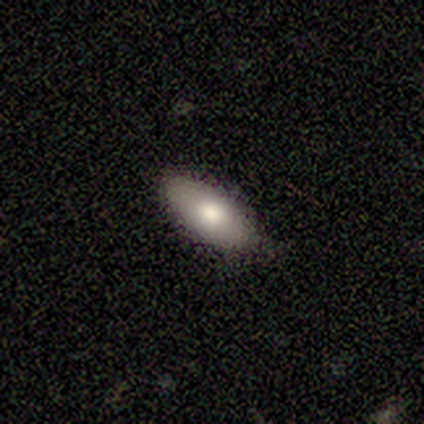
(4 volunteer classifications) smooth-or-featured: smooth: 50% | featured or disk: 25% | star or artifact: 25%
  how-rounded: round: 50% (tied) | in between: 50% (tied) | cigar-shaped: 0%
  merging: none: 67% | minor disturbance: 33% | major disturbance: 0% | merger: 0%